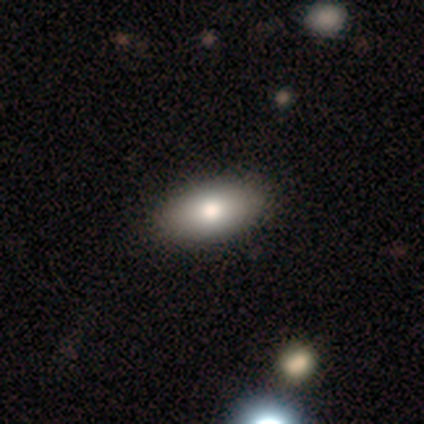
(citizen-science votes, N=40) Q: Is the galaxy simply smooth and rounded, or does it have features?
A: smooth — 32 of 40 (80%).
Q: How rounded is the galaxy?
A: in between — 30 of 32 (94%).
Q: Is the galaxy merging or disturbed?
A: none — 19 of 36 (53%).